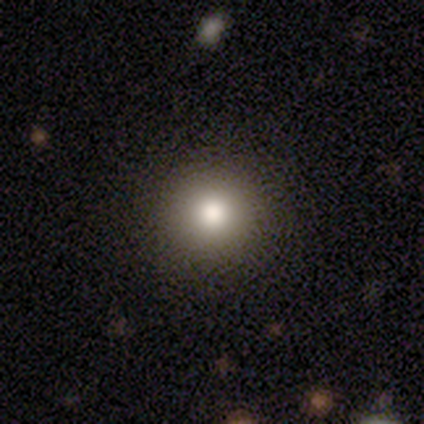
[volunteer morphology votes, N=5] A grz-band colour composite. It shows a smooth galaxy with no disk features (100%) that is round (100%). Merging: none (100%).